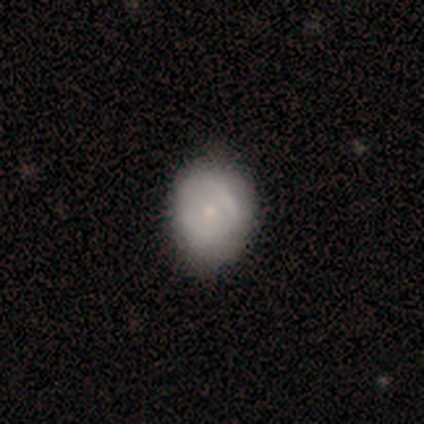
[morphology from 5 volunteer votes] This appears to be a smooth galaxy with no disk features (60%) that is round (100%). Merging: none (75%).